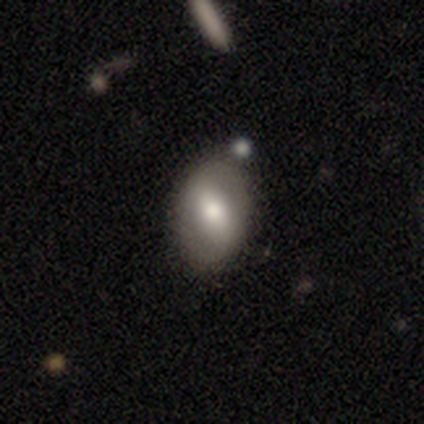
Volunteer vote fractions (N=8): smooth 62%, featured or disk 38%, star or artifact 0%. Down the decision tree: how rounded — in between (60%); merging — none (100%).